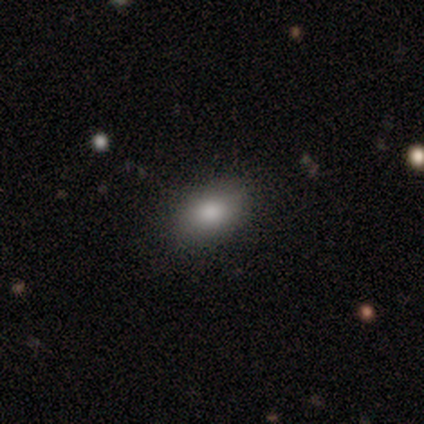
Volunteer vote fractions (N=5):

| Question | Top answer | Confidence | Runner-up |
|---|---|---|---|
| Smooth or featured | smooth | 100% | — |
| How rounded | in between | 80% | round (20%) |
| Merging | none | 100% | — |